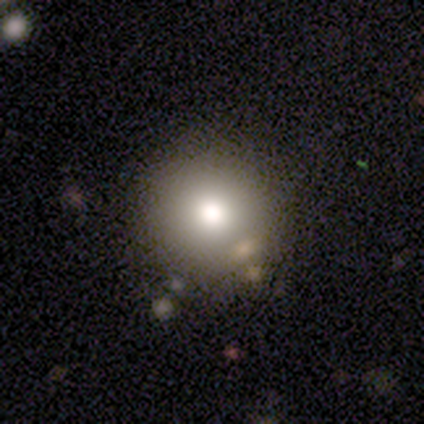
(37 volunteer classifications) Volunteers were most divided on "smooth or featured": smooth: 68%, featured or disk: 19%, star or artifact: 14%. More confident: how rounded — round (96%); merging — none (81%).